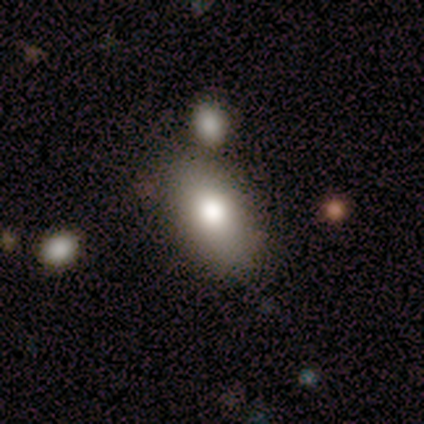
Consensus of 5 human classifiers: Smooth or featured? 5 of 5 (100%) said smooth. How rounded? 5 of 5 (100%) said in between. Merging? 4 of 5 (80%) said none.